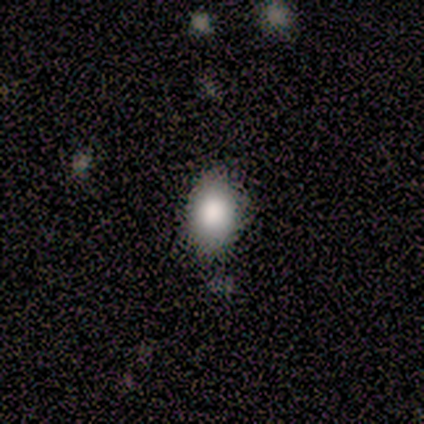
smooth 75%, star or artifact 25%, featured or disk 0%. Down the decision tree: how rounded — in between (67%); merging — minor disturbance (67%).